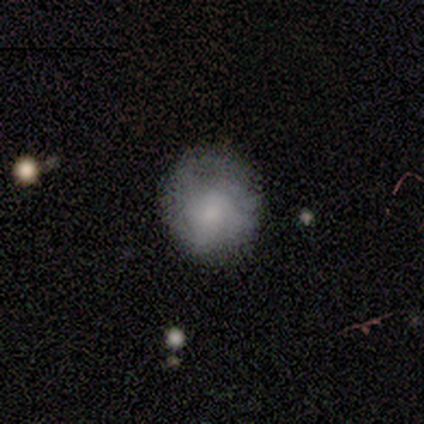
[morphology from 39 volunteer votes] Smooth or featured?
  - smooth: 69% *
  - featured or disk: 26%
  - star or artifact: 5%
How rounded?
  - round: 93% *
  - in between: 7%
  - cigar-shaped: 0%
Merging?
  - none: 38% *
  - minor disturbance: 11%
  - major disturbance: 3%
  - merger: 3%